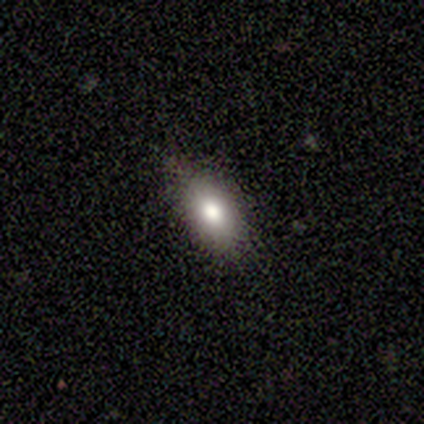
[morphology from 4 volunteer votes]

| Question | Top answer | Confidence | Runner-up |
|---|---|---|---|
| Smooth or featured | smooth | 100% | — |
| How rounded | in between | 100% | — |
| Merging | none | 75% | minor disturbance (25%) |